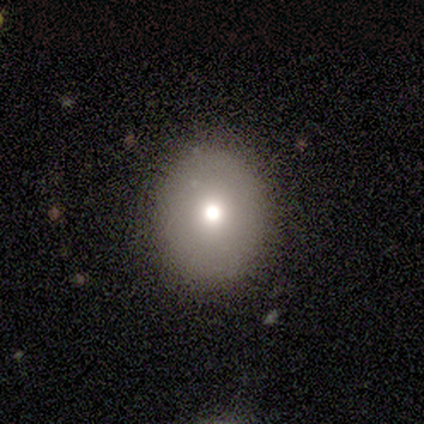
smooth_or_featured: smooth (p=0.67) [alt: featured or disk p=0.19]
how_rounded: round (p=0.50) [tied with: in between p=0.50]
merging: none (p=0.56) [alt: merger p=0.06]